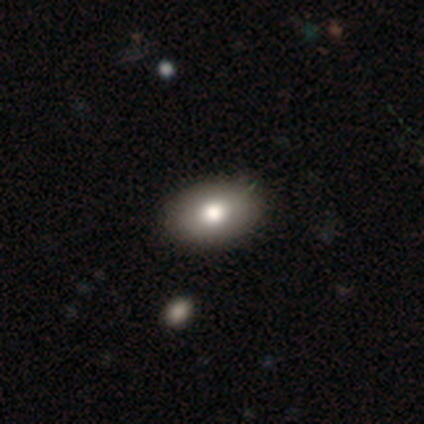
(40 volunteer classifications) Q: Smooth or featured?
A: smooth (80%); runner-up: featured or disk (18%)
Q: How rounded?
A: in between (91%); runner-up: round (9%)
Q: Merging?
A: none (56%); runner-up: merger (8%)